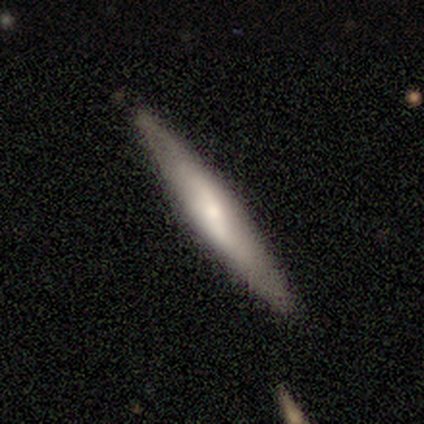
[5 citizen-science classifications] Smooth or featured?
  - featured or disk: 80% *
  - smooth: 20%
  - star or artifact: 0%
Edge-on disk?
  - yes: 100% *
  - no: 0%
Edge-on bulge?
  - none: 50% * (tied)
  - rounded: 50% * (tied)
  - boxy: 0%
Merging?
  - none: 100% *
  - minor disturbance: 0%
  - major disturbance: 0%
  - merger: 0%